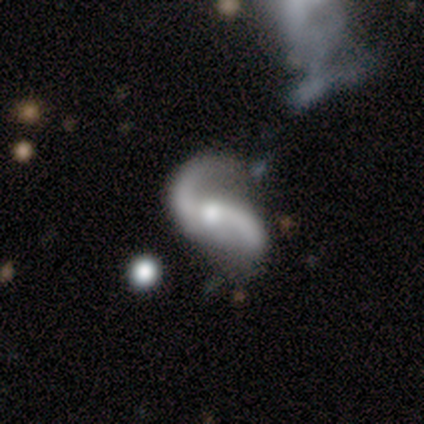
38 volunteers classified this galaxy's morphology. This is clearly a featured or disk galaxy (92%). It is clearly not viewed edge-on (97%). Bar: possibly no (53%). Spiral arm pattern: clearly yes (97%). Spiral arm count: clearly 2 (97%). Spiral winding: clearly loose (88%). Central bulge: likely moderate (71%). Merging: possibly none (47%).